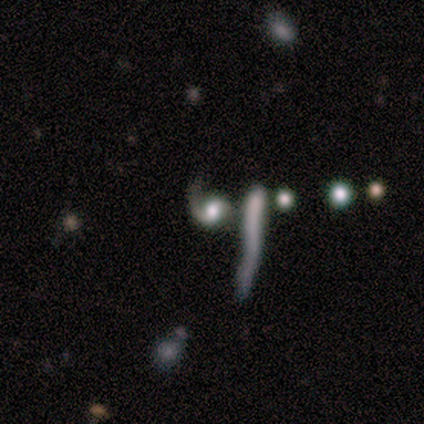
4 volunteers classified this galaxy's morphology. This appears to be a featured or disk galaxy (75%) with no bar (100%), 1 (100%) medium (100%) spiral arms (50%, tied with no) and a large central bulge (50%, tied with small). Merging: none (33%, tied with major disturbance and merger).